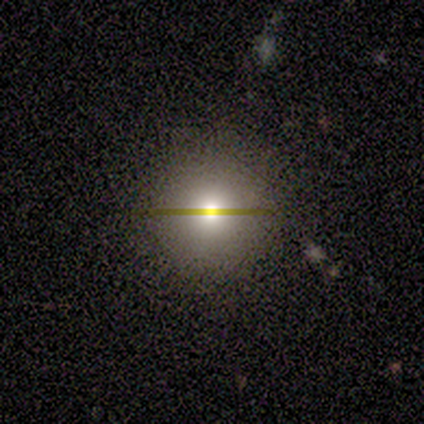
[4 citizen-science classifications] Smooth or featured? 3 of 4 (75%) said smooth. How rounded? 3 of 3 (100%) said round. Merging? 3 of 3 (100%) said none.